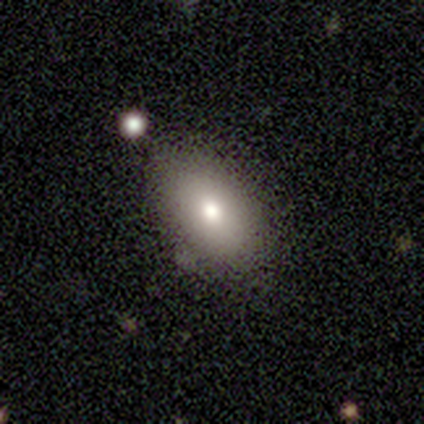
Volunteers were most divided on "smooth or featured": smooth: 68%, featured or disk: 24%, star or artifact: 8%. More confident: how rounded — in between (92%); merging — none (77%).